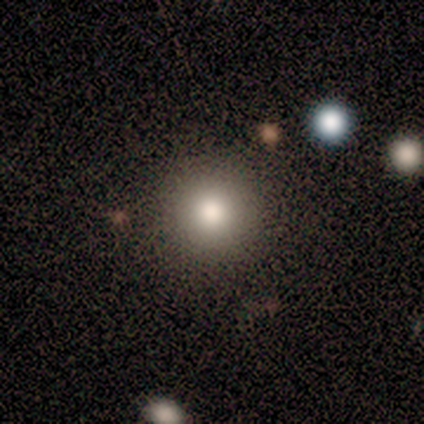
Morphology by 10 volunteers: smooth 100%, featured or disk 0%, star or artifact 0%. Down the decision tree: how rounded — round (100%); merging — none (100%).